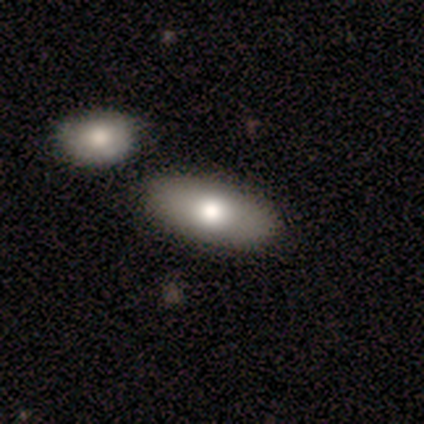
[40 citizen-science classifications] Smooth or featured? 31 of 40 (78%) said smooth. How rounded? 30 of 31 (97%) said in between. Merging? 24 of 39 (62%) said none.